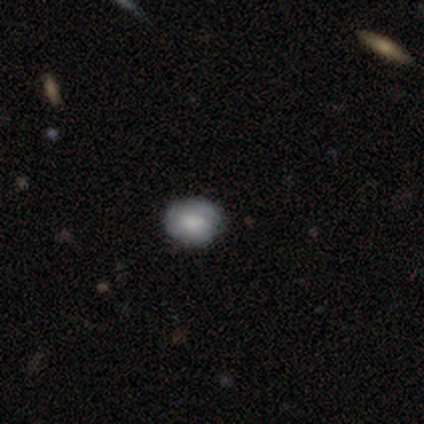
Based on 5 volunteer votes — Volunteers were most divided on "how rounded" (2-way tie): round: 50%, in between: 50%, cigar-shaped: 0%. More confident: smooth or featured — smooth (80%); merging — none (80%).